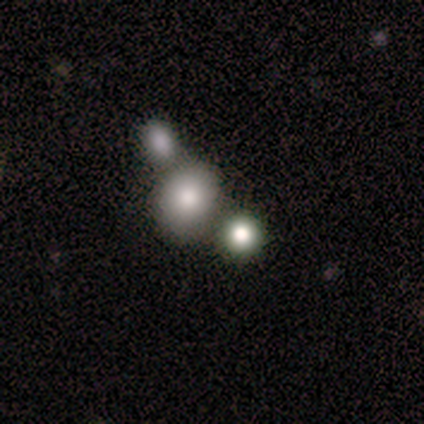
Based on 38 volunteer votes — Smooth or featured? smooth (61%)
How rounded? round (70%)
Merging? merger (52%)